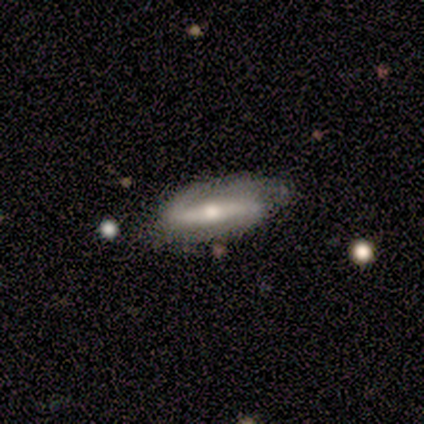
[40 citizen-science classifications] Volunteers were most divided on "spiral winding": loose: 38%, tight: 33%, medium: 29%. More confident: spiral arms — yes (100%); spiral arm count — 2 (81%); merging — none (81%); smooth or featured — featured or disk (75%); edge-on disk — no (70%); bulge size — moderate (67%); bar — strong (67%).